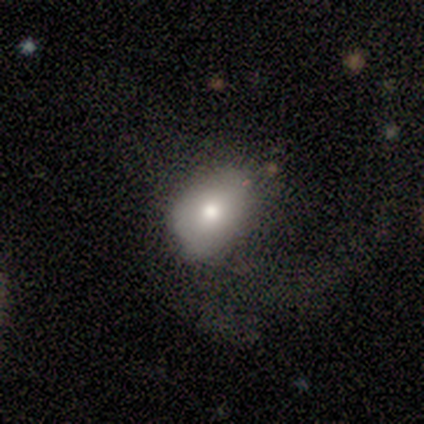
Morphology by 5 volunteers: Overall: smooth (40%, tied with featured or disk). How rounded: in between (100%). Merging: none (25%, tied with minor disturbance, major disturbance and merger).